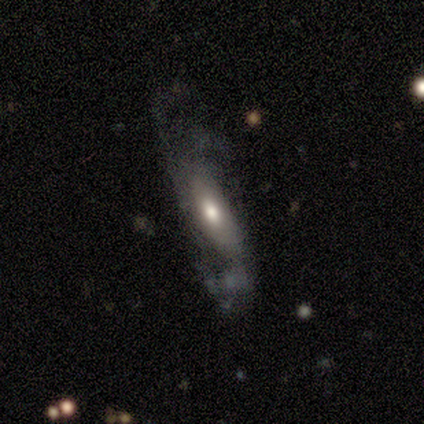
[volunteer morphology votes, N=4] A smooth galaxy with no disk features (50%) that is in between round and cigar-shaped (50%, tied with cigar-shaped). Merging: none (33%, tied with minor disturbance and merger).